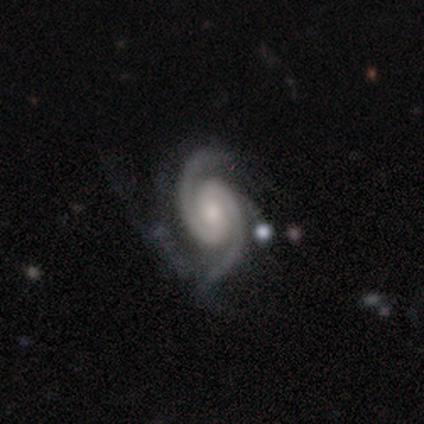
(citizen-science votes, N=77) A featured or disk galaxy (97%) with no bar (51%), 2 (95%) medium (51%) spiral arms (99%) and a moderate central bulge (50%). Merging: none (27%).